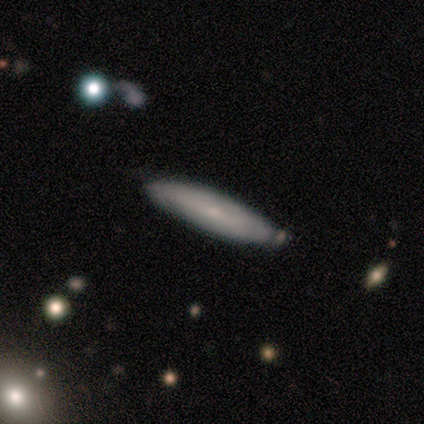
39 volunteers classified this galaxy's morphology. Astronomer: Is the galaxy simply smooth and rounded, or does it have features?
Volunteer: smooth — 62%.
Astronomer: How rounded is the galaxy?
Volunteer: cigar-shaped — 83%.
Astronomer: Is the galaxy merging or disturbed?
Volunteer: none — 81%.